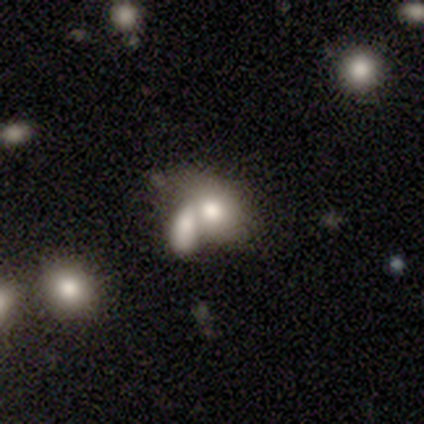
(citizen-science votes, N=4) Smooth or featured: featured or disk — 50% (smooth — 25%)
Edge-on disk: no — 100%
Bar: no — 100%
Spiral arms: no — 100%
Bulge size: dominant — 50% (tied with large — 50%)
Merging: none — 33% (tied with minor disturbance — 33%; merger — 33%)